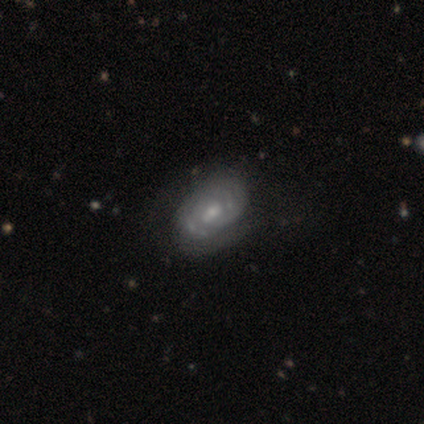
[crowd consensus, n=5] A featured or disk galaxy (80%) with a weak bar (75%), 2 (50%, tied with can't tell) tight (75%) spiral arms (100%) and a moderate central bulge (50%). Merging: none (60%).